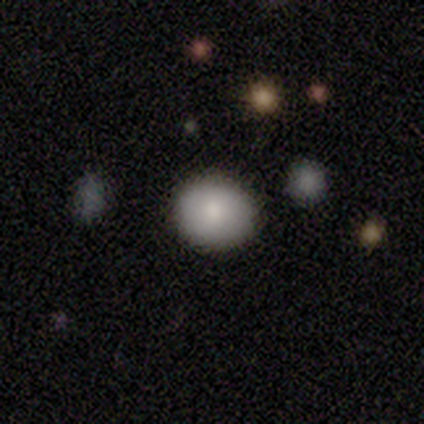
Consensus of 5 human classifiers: A smooth galaxy with no disk features (80%) that is round (100%).

Vote fractions:
- Smooth or featured? smooth: 80% / star or artifact: 20% / featured or disk: 0%
- How rounded? round: 100% / in between: 0% / cigar-shaped: 0%
- Merging? none: 100% / minor disturbance: 0% / major disturbance: 0% / merger: 0%